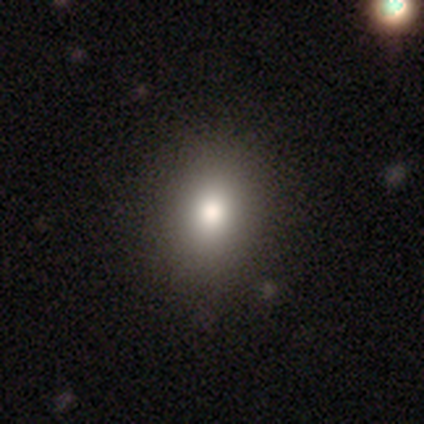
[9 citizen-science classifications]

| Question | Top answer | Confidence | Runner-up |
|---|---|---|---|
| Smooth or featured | smooth | 78% | featured or disk (22%) |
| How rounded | in between | 71% | round (29%) |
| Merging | none | 89% | merger (11%) |